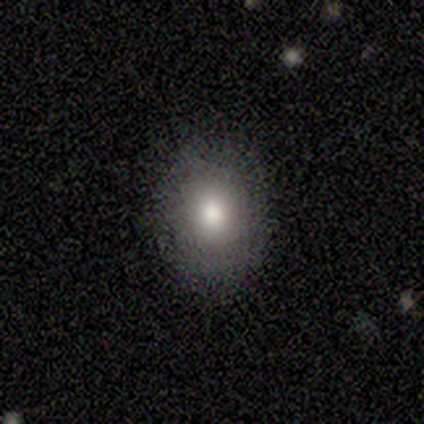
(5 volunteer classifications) Smooth or featured? smooth (100%)
How rounded? round (60%)
Merging? none (80%)